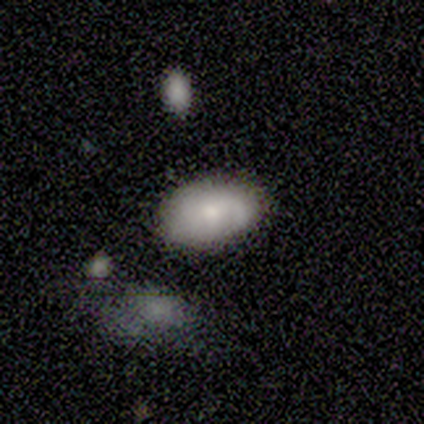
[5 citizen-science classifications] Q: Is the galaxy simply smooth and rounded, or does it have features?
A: smooth — 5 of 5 (100%).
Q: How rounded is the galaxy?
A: in between — 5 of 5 (100%).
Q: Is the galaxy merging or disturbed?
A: none — 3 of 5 (60%).